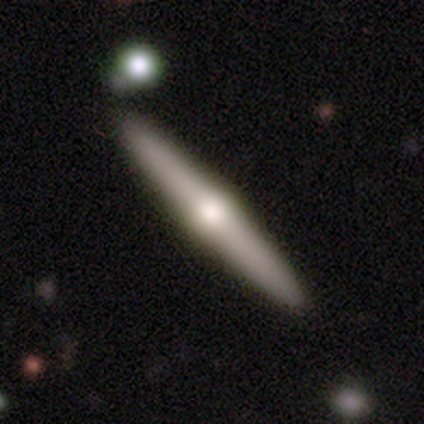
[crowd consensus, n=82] Smooth or featured? featured or disk (66%)
Edge-on disk? yes (98%)
Edge-on bulge? rounded (94%)
Merging? none (83%)